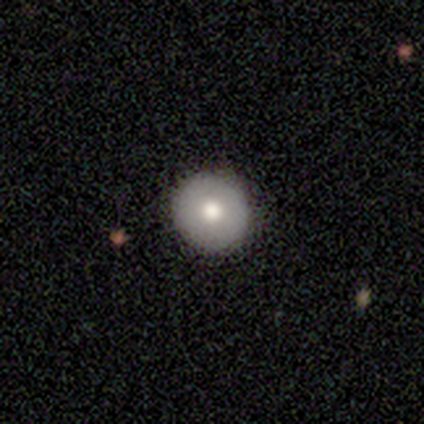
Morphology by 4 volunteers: This appears to be a smooth galaxy with no disk features (75%) that is round (100%). Merging: none (100%).